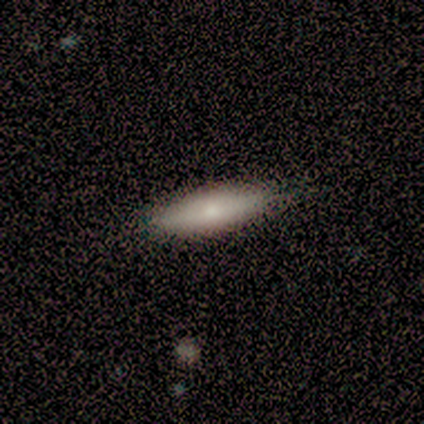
Volunteers were most divided on "merging": none: 45%, minor disturbance: 5%, merger: 5%, major disturbance: 0%. More confident: how rounded — cigar-shaped (89%); smooth or featured — smooth (70%).